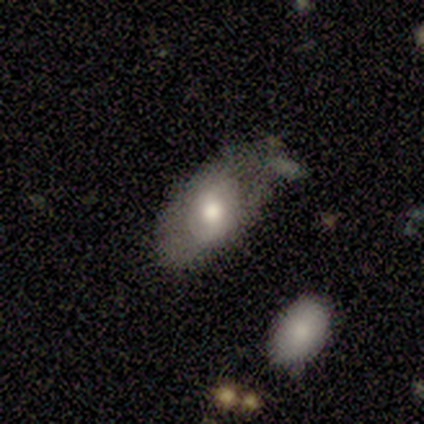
Smooth or featured? smooth (60%)
How rounded? in between (100%)
Merging? none (75%)